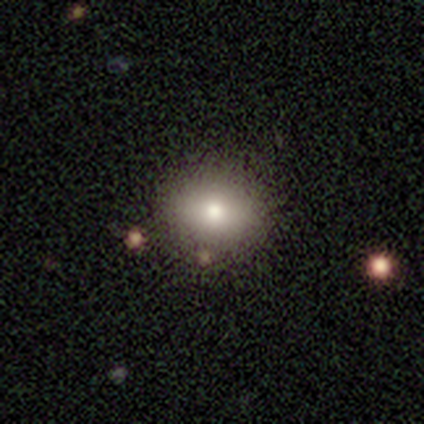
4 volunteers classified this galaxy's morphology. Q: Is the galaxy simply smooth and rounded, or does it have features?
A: smooth — 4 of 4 (100%).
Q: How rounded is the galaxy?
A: round — 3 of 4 (75%).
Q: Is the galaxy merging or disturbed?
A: none — 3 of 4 (75%).